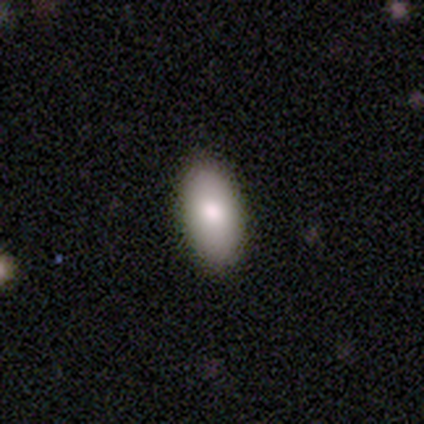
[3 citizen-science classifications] Smooth or featured? 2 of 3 (67%) said smooth. How rounded? 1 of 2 (50%, tied with in between) said round. Merging? 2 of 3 (67%) said none.